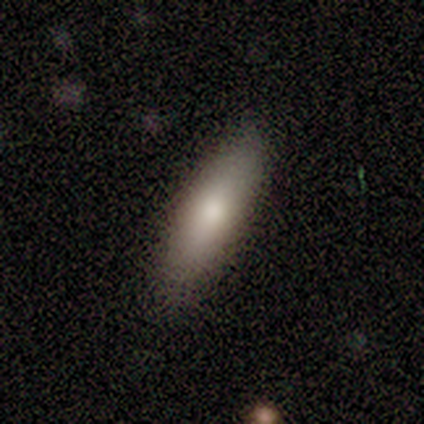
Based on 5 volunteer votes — smooth_or_featured: featured or disk (p=0.60) [alt: smooth p=0.40]
disk_edge_on: no (p=1.00)
bar: no (p=1.00)
has_spiral_arms: no (p=0.67) [alt: yes p=0.33]
bulge_size: moderate (p=0.67) [alt: large p=0.33]
merging: none (p=0.80) [alt: minor disturbance p=0.20]